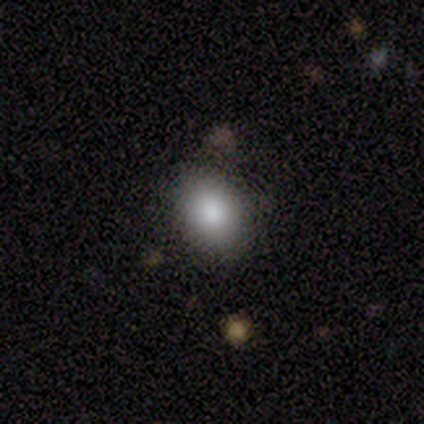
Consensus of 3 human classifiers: Smooth or featured?
  - smooth: 100% *
  - featured or disk: 0%
  - star or artifact: 0%
How rounded?
  - in between: 100% *
  - round: 0%
  - cigar-shaped: 0%
Merging?
  - none: 100% *
  - minor disturbance: 0%
  - major disturbance: 0%
  - merger: 0%